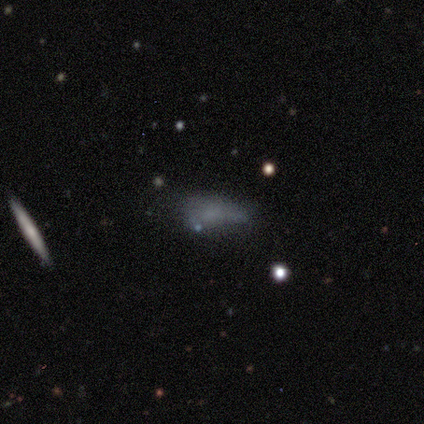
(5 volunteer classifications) smooth_or_featured: star or artifact (p=0.60) [alt: smooth p=0.40]